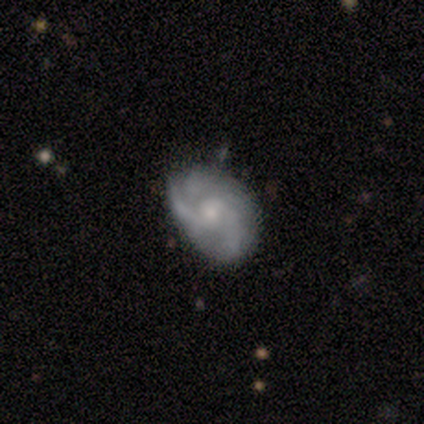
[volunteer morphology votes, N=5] Smooth or featured? 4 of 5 (80%) said featured or disk. Edge-on disk? 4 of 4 (100%) said no. Bar? 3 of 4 (75%) said no. Spiral arms? 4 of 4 (100%) said yes. Spiral winding? 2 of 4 (50%) said loose. Spiral arm count? 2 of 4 (50%) said 3. Bulge size? 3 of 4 (75%) said small. Merging? 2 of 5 (40%, tied with minor disturbance) said none.